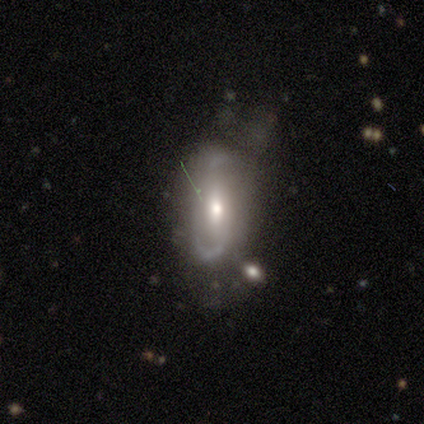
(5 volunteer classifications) smooth-or-featured: featured or disk: 80% | star or artifact: 20% | smooth: 0%
  disk-edge-on: no: 75% | yes: 25%
    bar: strong: 33% (tied) | weak: 33% (tied) | no: 33% (tied)
    has-spiral-arms: yes: 100% | no: 0%
      spiral-winding: loose: 100% | tight: 0% | medium: 0%
      spiral-arm-count: 2: 67% | can't tell: 33% | 1: 0% | 3: 0% | 4: 0% | more than 4: 0%
    bulge-size: moderate: 67% | small: 33% | dominant: 0% | large: 0% | none: 0%
  merging: none: 50% (tied) | minor disturbance: 50% (tied) | major disturbance: 0% | merger: 0%